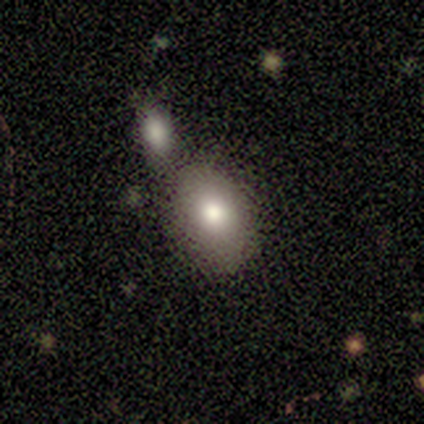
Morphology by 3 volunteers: Smooth or featured?
  - smooth: 67% *
  - featured or disk: 33%
  - star or artifact: 0%
How rounded?
  - in between: 100% *
  - round: 0%
  - cigar-shaped: 0%
Merging?
  - none: 67% *
  - merger: 33%
  - minor disturbance: 0%
  - major disturbance: 0%